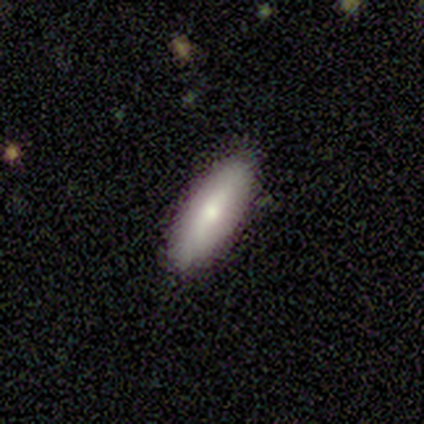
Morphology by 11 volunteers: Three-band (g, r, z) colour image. It shows a smooth galaxy with no disk features (91%) that is in between round and cigar-shaped (80%). Merging: none (82%).